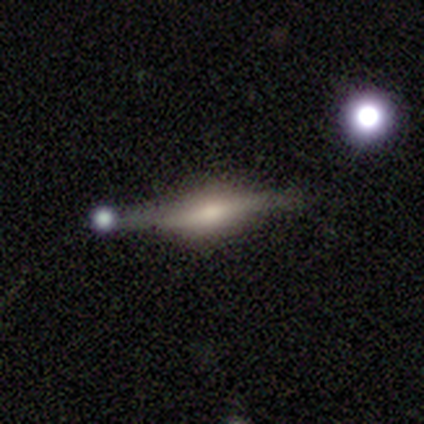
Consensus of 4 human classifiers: Smooth or featured: featured or disk — 100%
Edge-on disk: yes — 100%
Edge-on bulge: rounded — 100%
Merging: none — 100%